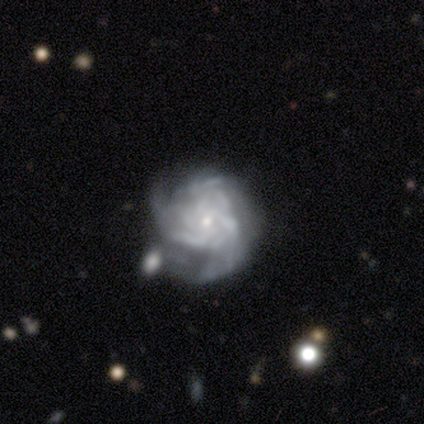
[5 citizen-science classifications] This is clearly a featured or disk galaxy (100%). It is clearly not viewed edge-on (100%). Bar: marginally weak (40%, tied with no). Spiral arm pattern: clearly yes (100%). Spiral arm count: likely 3 (60%). Spiral winding: clearly tight (80%). Central bulge: clearly small (80%). Merging: marginally major disturbance (40%).